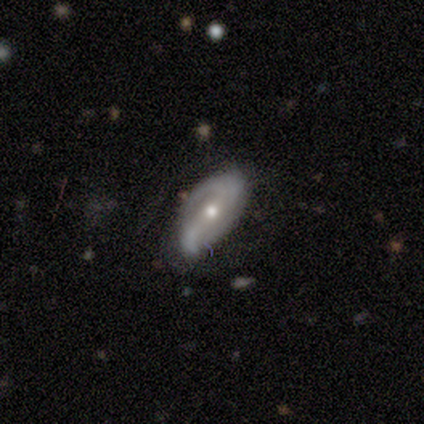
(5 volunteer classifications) A featured or disk galaxy (60%) with a weak bar (100%), 2 (100%) loose (67%) spiral arms (100%) and a small central bulge (67%). Merging: major disturbance (60%).